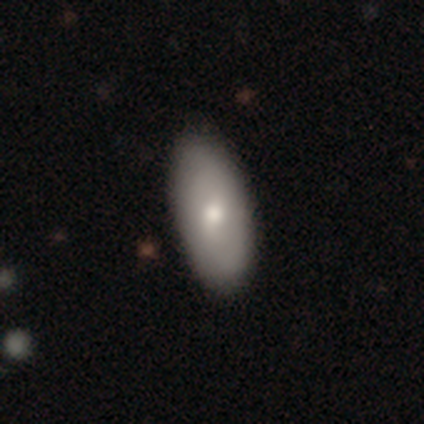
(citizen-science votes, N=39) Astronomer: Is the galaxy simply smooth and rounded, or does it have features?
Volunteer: smooth — 74%.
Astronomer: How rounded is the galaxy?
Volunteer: in between — 93%.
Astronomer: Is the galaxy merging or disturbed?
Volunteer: none — 55%.